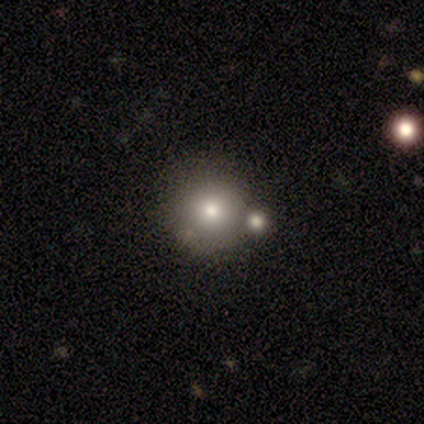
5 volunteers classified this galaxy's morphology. A smooth galaxy with no disk features (60%) that is round (100%).

Vote fractions:
- Smooth or featured? smooth: 60% / featured or disk: 20% / star or artifact: 20%
- How rounded? round: 100% / in between: 0% / cigar-shaped: 0%
- Merging? none: 75% / merger: 25% / minor disturbance: 0% / major disturbance: 0%